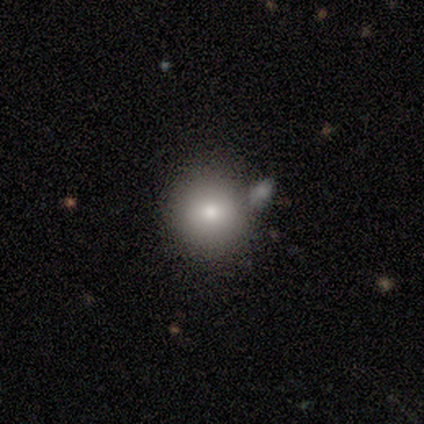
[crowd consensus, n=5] smooth 40% (tied), star or artifact 40% (tied), featured or disk 20%. Down the decision tree: how rounded — round (100%); merging — merger (67%).